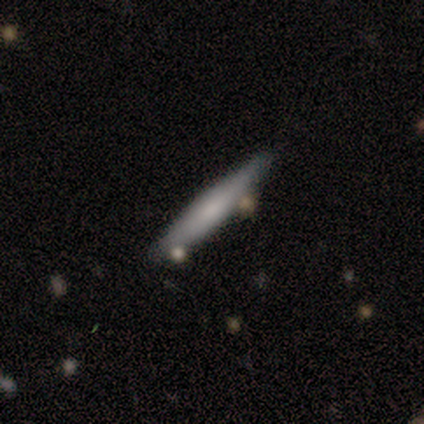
smooth-or-featured: smooth: 59% | featured or disk: 35% | star or artifact: 5%
  how-rounded: cigar-shaped: 91% | in between: 9% | round: 0%
  merging: none: 71% | merger: 14% | minor disturbance: 9% | major disturbance: 6%